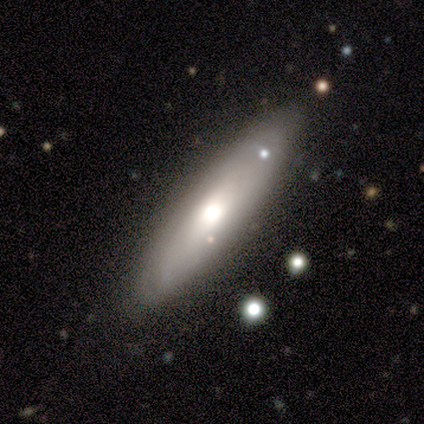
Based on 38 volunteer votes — Volunteers were most divided on "edge-on disk": yes: 55%, no: 45%. More confident: edge-on bulge — rounded (92%); merging — none (70%); smooth or featured — featured or disk (58%).